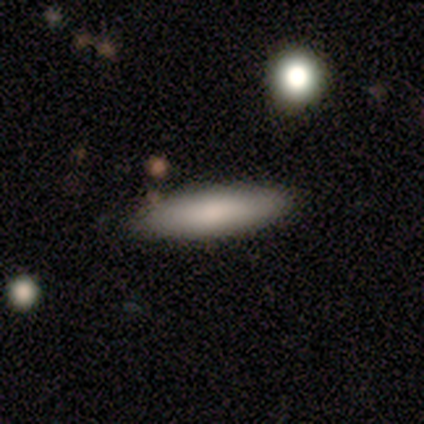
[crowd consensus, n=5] Morphology: type=smooth (60%); roundness=in between (67%); merging=none (80%).